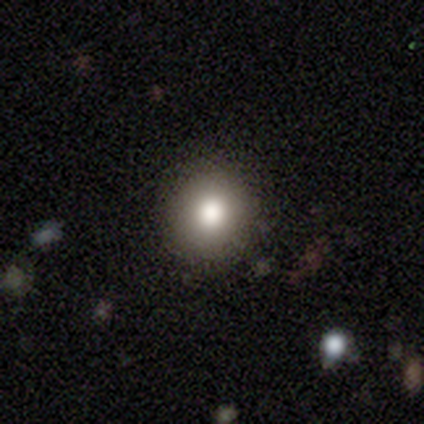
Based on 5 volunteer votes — Overall: smooth (80%). How rounded: round (100%). Merging: none (75%).